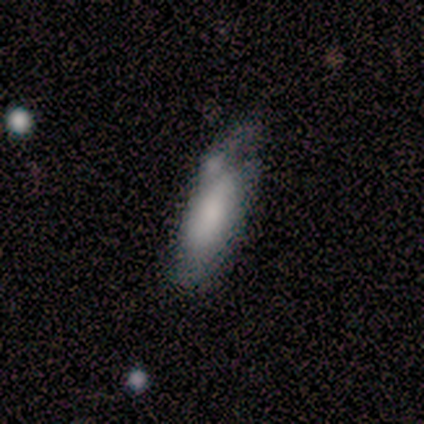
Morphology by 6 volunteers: Volunteers were most divided on "merging": minor disturbance: 50%, none: 33%, major disturbance: 17%, merger: 0%. More confident: smooth or featured — smooth (83%); how rounded — in between (80%).